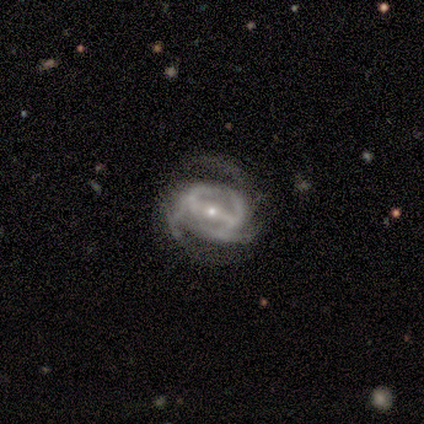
A featured or disk galaxy (100%) with a strong bar (50%, tied with weak), 3 (75%) medium (75%) spiral arms (100%) and a small central bulge (75%). Merging: none (75%).